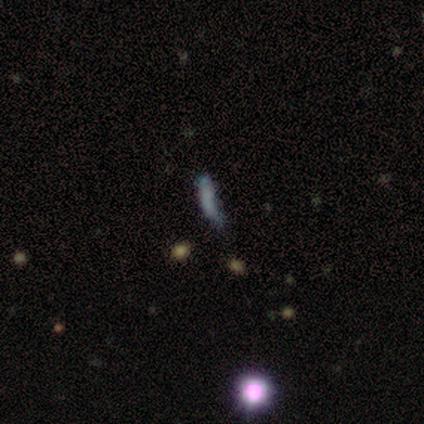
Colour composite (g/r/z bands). It shows a star or artifact, not a galaxy (60%).